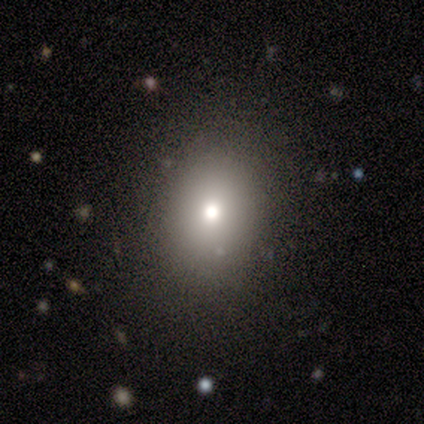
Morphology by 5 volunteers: A smooth galaxy with no disk features (40%, tied with star or artifact) that is round (50%, tied with in between).

Vote fractions:
- Smooth or featured? smooth: 40% (tied) / star or artifact: 40% (tied) / featured or disk: 20%
- How rounded? round: 50% (tied) / in between: 50% (tied) / cigar-shaped: 0%
- Merging? none: 100% / minor disturbance: 0% / major disturbance: 0% / merger: 0%